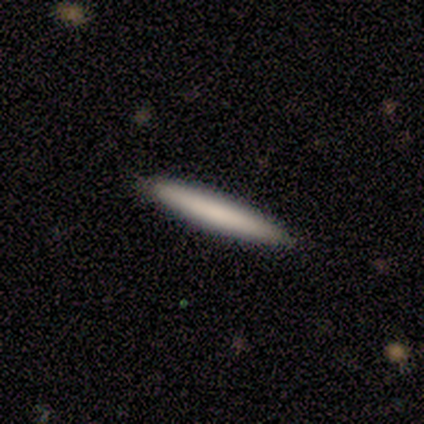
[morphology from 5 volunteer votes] A smooth galaxy with no disk features (100%) that is cigar-shaped (80%).

Vote fractions:
- Smooth or featured? smooth: 100% / featured or disk: 0% / star or artifact: 0%
- How rounded? cigar-shaped: 80% / round: 20% / in between: 0%
- Merging? none: 80% / minor disturbance: 20% / major disturbance: 0% / merger: 0%